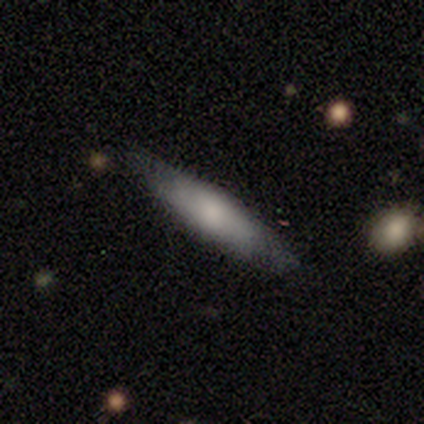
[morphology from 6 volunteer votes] smooth-or-featured: smooth: 50% | star or artifact: 33% | featured or disk: 17%
  how-rounded: cigar-shaped: 100% | round: 0% | in between: 0%
  merging: none: 100% | minor disturbance: 0% | major disturbance: 0% | merger: 0%